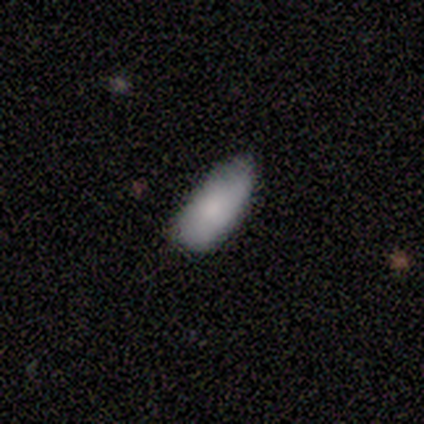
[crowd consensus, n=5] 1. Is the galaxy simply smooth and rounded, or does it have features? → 80% smooth, 20% featured or disk, 0% star or artifact.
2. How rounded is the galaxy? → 100% in between, 0% round, 0% cigar-shaped.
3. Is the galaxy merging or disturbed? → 40% none (tied), 40% minor disturbance (tied), 20% major disturbance, 0% merger.